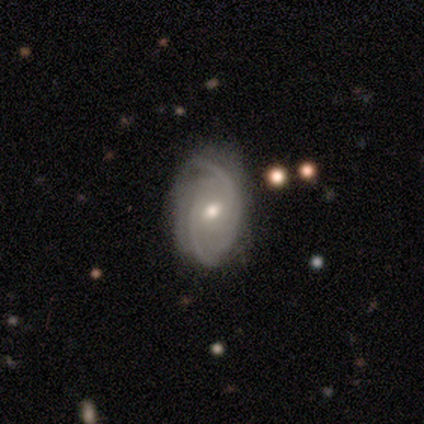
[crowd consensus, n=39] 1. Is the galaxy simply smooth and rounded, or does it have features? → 77% featured or disk, 13% smooth, 10% star or artifact.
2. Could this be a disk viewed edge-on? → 100% no, 0% yes.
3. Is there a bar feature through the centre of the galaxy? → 50% weak, 47% no, 3% strong.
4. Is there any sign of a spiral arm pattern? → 97% yes, 3% no.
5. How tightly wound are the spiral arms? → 52% tight, 31% medium, 17% loose.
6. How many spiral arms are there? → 41% 2 (tied), 41% can't tell (tied), 14% 3, 3% 1, 0% 4, 0% more than 4.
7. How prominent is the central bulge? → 60% moderate, 37% small, 3% large, 0% dominant, 0% none.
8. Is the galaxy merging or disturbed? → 66% none, 31% minor disturbance, 3% major disturbance, 0% merger.